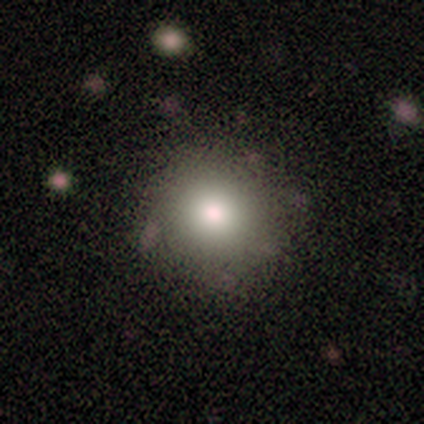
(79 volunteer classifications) A smooth galaxy with no disk features (81%) that is round (91%). Merging: none (50%).